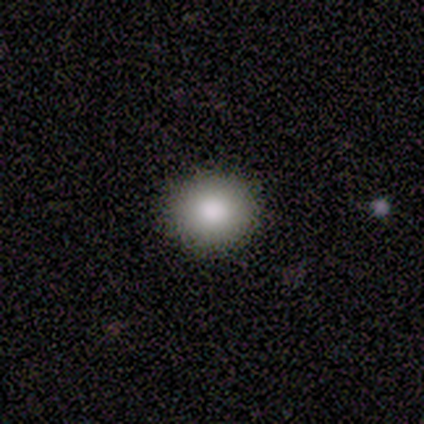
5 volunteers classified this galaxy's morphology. Smooth or featured?
  - smooth: 100% *
  - featured or disk: 0%
  - star or artifact: 0%
How rounded?
  - round: 80% *
  - in between: 20%
  - cigar-shaped: 0%
Merging?
  - none: 80% *
  - minor disturbance: 20%
  - major disturbance: 0%
  - merger: 0%